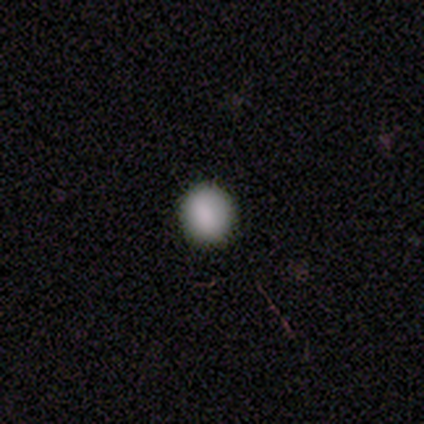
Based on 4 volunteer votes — smooth_or_featured: smooth (p=1.00)
how_rounded: round (p=1.00)
merging: none (p=1.00)